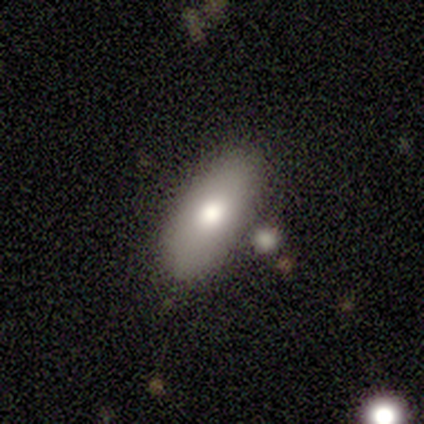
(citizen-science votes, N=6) smooth 50% (tied), featured or disk 50% (tied), star or artifact 0%. Down the decision tree: how rounded — in between (67%); merging — none (50%, tied with minor disturbance).